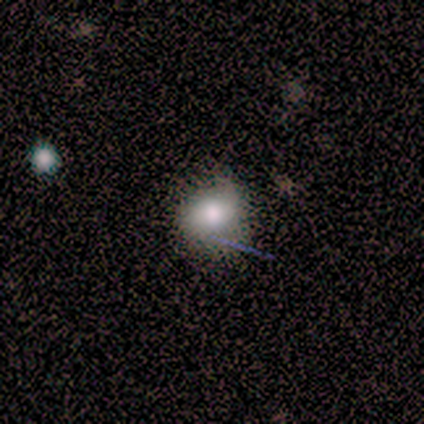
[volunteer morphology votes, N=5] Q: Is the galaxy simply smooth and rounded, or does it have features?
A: star or artifact — 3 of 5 (60%).